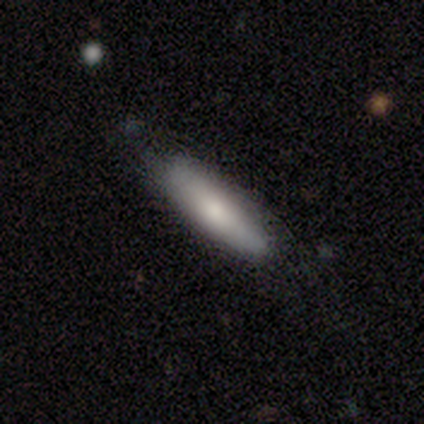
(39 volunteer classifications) smooth_or_featured: smooth (p=0.69) [alt: featured or disk p=0.26]
how_rounded: cigar-shaped (p=0.59) [alt: in between p=0.41]
merging: none (p=0.81) [alt: minor disturbance p=0.14]